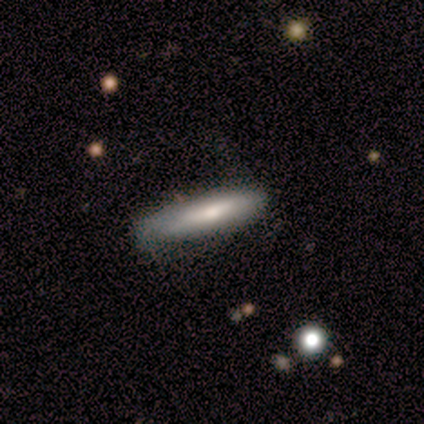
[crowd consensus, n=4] smooth-or-featured: smooth: 50% (tied) | featured or disk: 50% (tied) | star or artifact: 0%
  how-rounded: cigar-shaped: 100% | round: 0% | in between: 0%
  merging: none: 75% | minor disturbance: 25% | major disturbance: 0% | merger: 0%